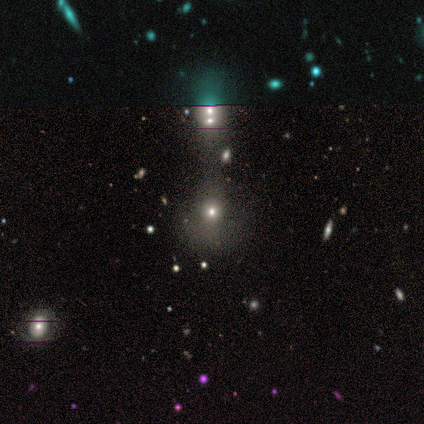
Smooth or featured?
  - smooth: 100% *
  - featured or disk: 0%
  - star or artifact: 0%
How rounded?
  - in between: 100% *
  - round: 0%
  - cigar-shaped: 0%
Merging?
  - major disturbance: 100% *
  - none: 0%
  - minor disturbance: 0%
  - merger: 0%